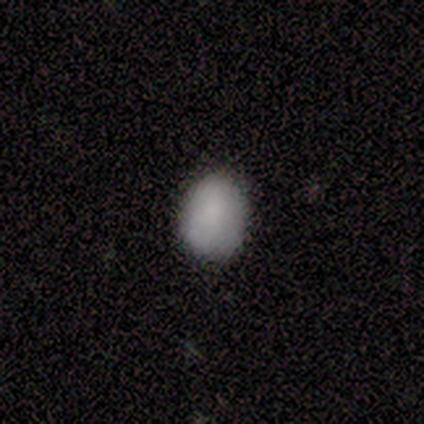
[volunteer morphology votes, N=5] smooth 100%, featured or disk 0%, star or artifact 0%. Down the decision tree: how rounded — round (60%); merging — none (100%).